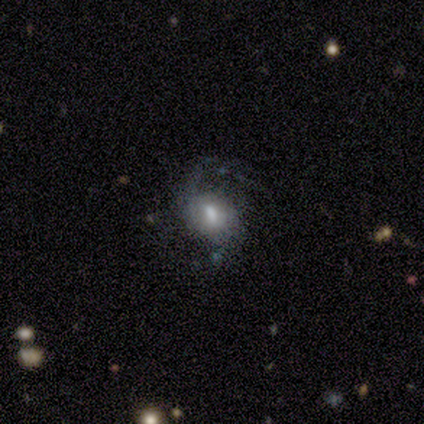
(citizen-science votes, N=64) Smooth or featured: featured or disk — 69% (smooth — 20%)
Edge-on disk: no — 100%
Bar: no — 48% (weak — 43%)
Spiral arms: yes — 86% (no — 14%)
Spiral winding: loose — 50% (medium — 39%)
Spiral arm count: 2 — 45% (1 — 24%)
Bulge size: moderate — 61% (small — 18%)
Merging: none — 54% (major disturbance — 32%)